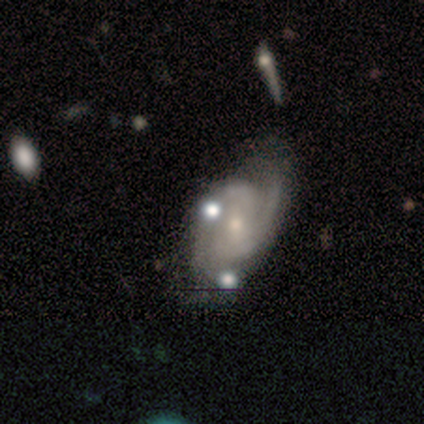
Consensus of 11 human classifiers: A featured or disk galaxy (73%) with no bar (50%), 2 (88%) medium (50%) spiral arms (100%) and a small central bulge (62%).

Vote fractions:
- Smooth or featured? featured or disk: 73% / star or artifact: 18% / smooth: 9%
- Edge-on disk? no: 100% / yes: 0%
- Bar? no: 50% / weak: 38% / strong: 12%
- Spiral arms? yes: 100% / no: 0%
- Spiral winding? medium: 50% / tight: 38% / loose: 12%
- Spiral arm count? 2: 88% / can't tell: 12% / 1: 0% / 3: 0% / 4: 0% / more than 4: 0%
- Bulge size? small: 62% / moderate: 38% / dominant: 0% / large: 0% / none: 0%
- Merging? none: 78% / minor disturbance: 11% / major disturbance: 11% / merger: 0%